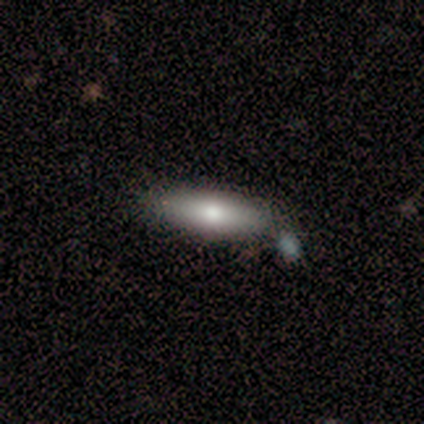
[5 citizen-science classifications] Smooth or featured: smooth — 80% (featured or disk — 20%)
How rounded: cigar-shaped — 75% (in between — 25%)
Merging: none — 80% (merger — 20%)